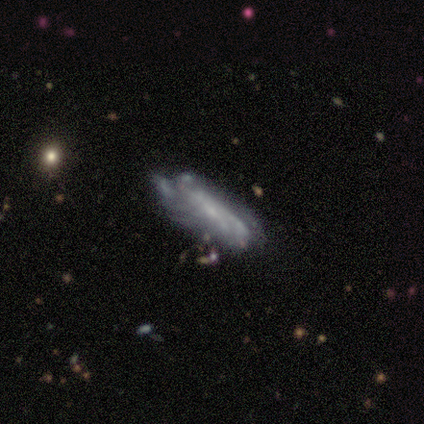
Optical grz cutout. It shows a featured or disk galaxy (70%) with no bar (80%), no spiral arms (60%) and a small central bulge (60%). Merging: none (44%, tied with minor disturbance).